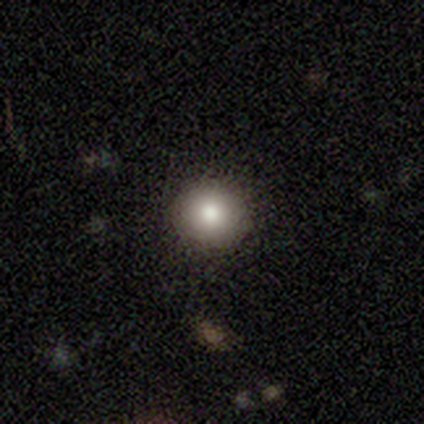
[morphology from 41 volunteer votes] type=smooth (71%); roundness=round (86%); merging=none (97%).